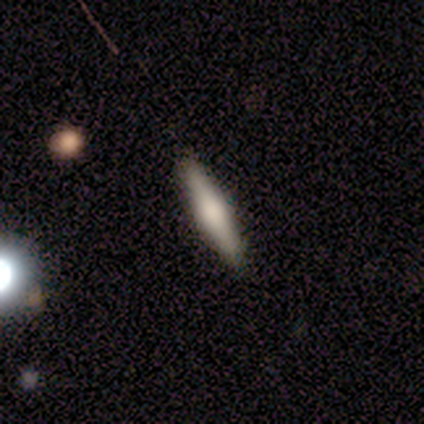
Q: Smooth or featured?
A: smooth (80%); runner-up: featured or disk (20%)
Q: How rounded?
A: cigar-shaped (100%)
Q: Merging?
A: none (80%); runner-up: minor disturbance (20%)